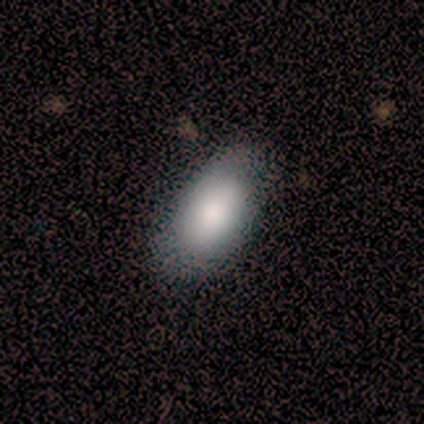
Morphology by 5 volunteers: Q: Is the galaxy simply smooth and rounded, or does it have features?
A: smooth — 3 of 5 (60%).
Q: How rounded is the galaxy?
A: in between — 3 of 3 (100%).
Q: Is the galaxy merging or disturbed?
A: none — 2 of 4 (50%).